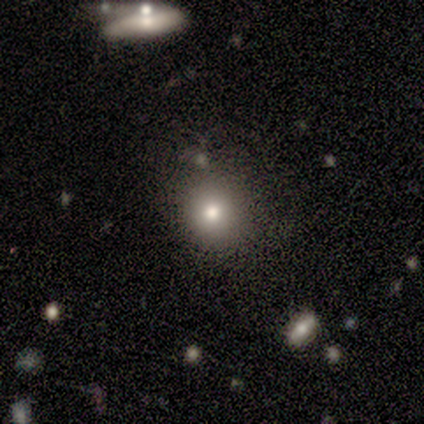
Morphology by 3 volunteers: smooth_or_featured: smooth (p=1.00)
how_rounded: round (p=0.67) [alt: in between p=0.33]
merging: none (p=0.67) [alt: major disturbance p=0.33]